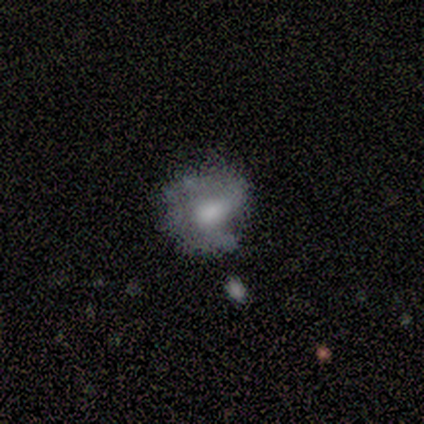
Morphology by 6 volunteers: Smooth or featured? smooth (67%)
How rounded? round (50%, tied with in between)
Merging? none (33%, tied with minor disturbance and major disturbance)